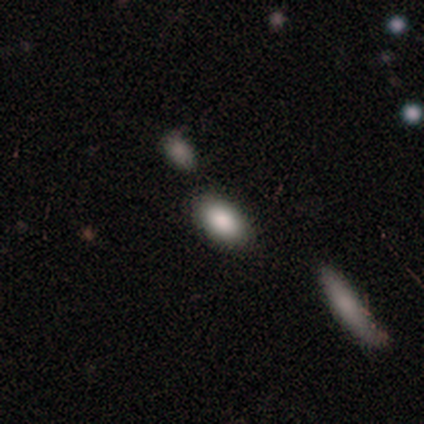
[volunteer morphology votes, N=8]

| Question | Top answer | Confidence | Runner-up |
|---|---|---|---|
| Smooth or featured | smooth | 88% | star or artifact (12%) |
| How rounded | in between | 57% | cigar-shaped (29%) |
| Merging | none | 100% | — |